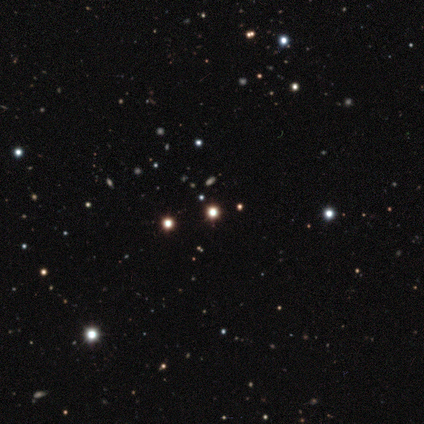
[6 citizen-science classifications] This is clearly a star or artifact rather than a galaxy (100%).